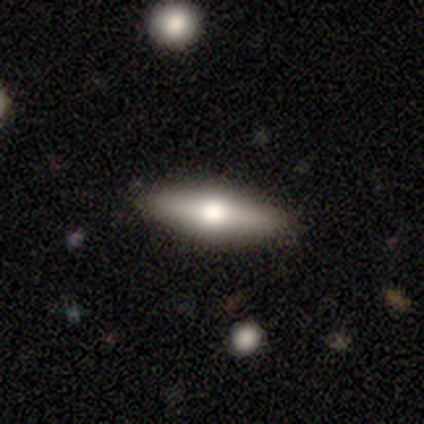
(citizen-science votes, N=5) Morphology: type=featured or disk (80%); edge-on=yes (50%, tied with no); edge-on bulge=rounded (100%); merging=none (80%).